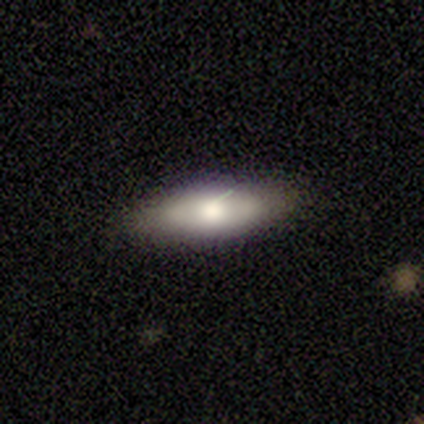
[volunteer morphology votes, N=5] Smooth or featured? featured or disk (80%)
Edge-on disk? yes (75%)
Edge-on bulge? rounded (100%)
Merging? none (80%)